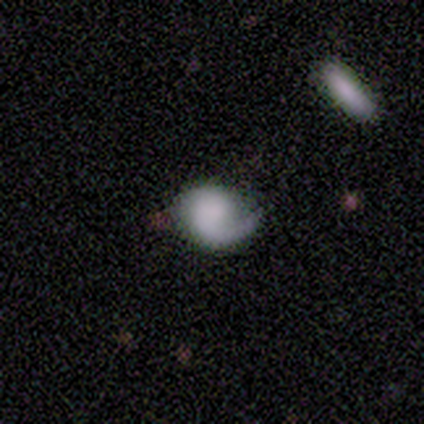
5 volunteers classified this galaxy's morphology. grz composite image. It shows a featured or disk galaxy (60%) with no bar (100%), 1 (100%) medium (67%) spiral arms (100%) and a dominant central bulge (33%, tied with large and none). Merging: none (75%).